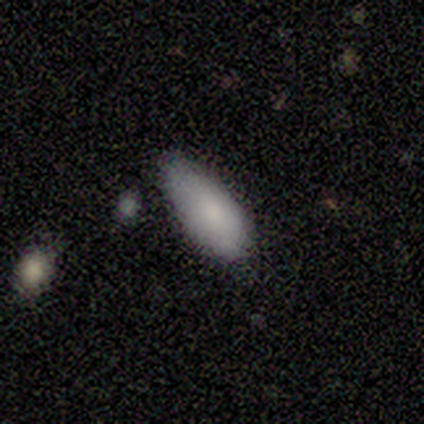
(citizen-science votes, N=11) Morphology: type=smooth (100%); roundness=in between (91%); merging=minor disturbance (73%).